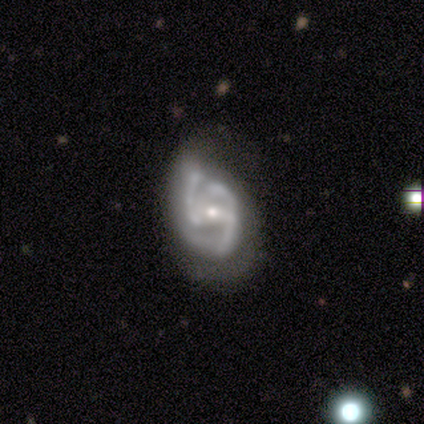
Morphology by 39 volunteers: Volunteers were most divided on "spiral winding": medium: 47%, tight: 44%, loose: 9%. Remaining: edge-on disk — no (97%); smooth or featured — featured or disk (95%); spiral arms — yes (94%); bulge size — small (56%); bar — weak (50%); spiral arm count — 3 (44%); merging — none (33%).